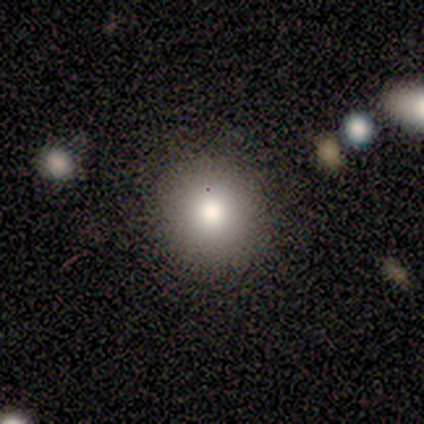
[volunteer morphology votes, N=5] Overall: smooth (100%). How rounded: round (100%). Merging: none (80%).